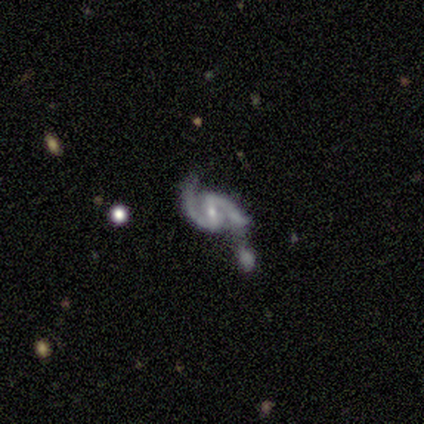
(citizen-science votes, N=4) Smooth or featured? 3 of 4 (75%) said featured or disk. Edge-on disk? 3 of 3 (100%) said no. Bar? 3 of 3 (100%) said strong. Spiral arms? 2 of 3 (67%) said yes. Spiral winding? 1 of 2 (50%, tied with loose) said tight. Spiral arm count? 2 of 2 (100%) said 2. Bulge size? 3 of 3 (100%) said small. Merging? 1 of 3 (33%, tied with major disturbance and merger) said none.